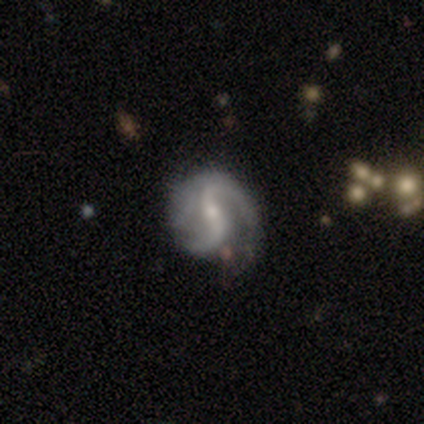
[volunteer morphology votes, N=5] Smooth or featured?
  - featured or disk: 100% *
  - smooth: 0%
  - star or artifact: 0%
Edge-on disk?
  - no: 100% *
  - yes: 0%
Bar?
  - weak: 40% * (tied)
  - no: 40% * (tied)
  - strong: 20%
Spiral arms?
  - yes: 100% *
  - no: 0%
Spiral winding?
  - medium: 40% * (tied)
  - loose: 40% * (tied)
  - tight: 20%
Spiral arm count?
  - 2: 80% *
  - 1: 20%
  - 3: 0%
  - 4: 0%
  - more than 4: 0%
  - can't tell: 0%
Bulge size?
  - small: 80% *
  - moderate: 20%
  - dominant: 0%
  - large: 0%
  - none: 0%
Merging?
  - none: 80% *
  - minor disturbance: 20%
  - major disturbance: 0%
  - merger: 0%